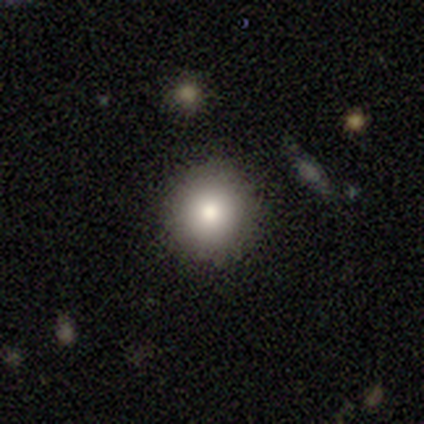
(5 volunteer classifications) smooth 80%, featured or disk 20%, star or artifact 0%. Down the decision tree: how rounded — round (100%); merging — none (80%).